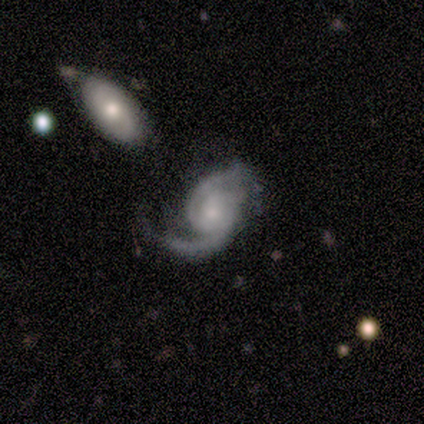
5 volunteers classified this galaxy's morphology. featured or disk 80%, star or artifact 20%, smooth 0%. Down the decision tree: edge-on disk — no (100%); bar — no (100%); spiral arms — yes (100%); spiral arm count — 2 (100%); spiral winding — tight (50%); bulge size — moderate (50%, tied with small); merging — merger (50%).